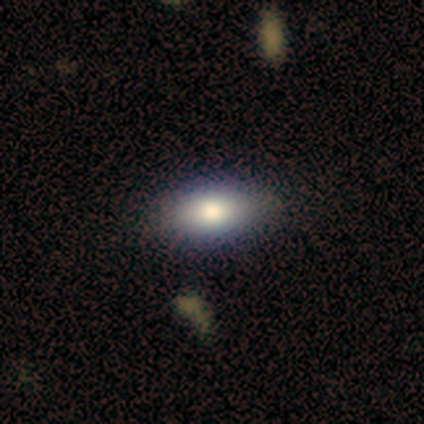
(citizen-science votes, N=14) This is clearly a smooth galaxy (86%). How rounded: clearly in between (100%). Merging: clearly none (100%).